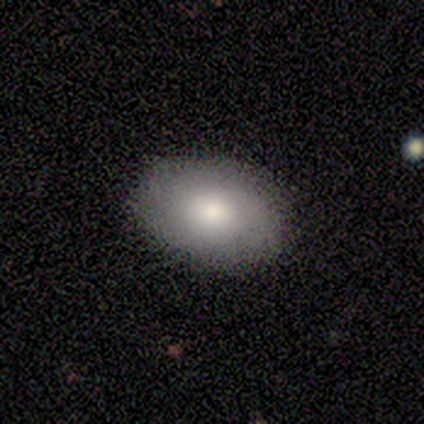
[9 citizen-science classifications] smooth-or-featured: smooth: 78% | featured or disk: 11% | star or artifact: 11%
  how-rounded: in between: 71% | round: 29% | cigar-shaped: 0%
  merging: none: 100% | minor disturbance: 0% | major disturbance: 0% | merger: 0%